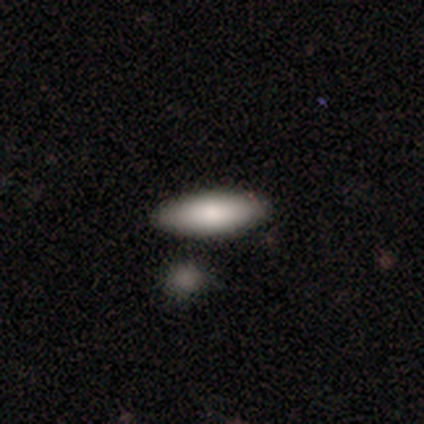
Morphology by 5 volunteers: A smooth galaxy with no disk features (80%) that is in between round and cigar-shaped (100%).

Vote fractions:
- Smooth or featured? smooth: 80% / featured or disk: 20% / star or artifact: 0%
- How rounded? in between: 100% / round: 0% / cigar-shaped: 0%
- Merging? none: 100% / minor disturbance: 0% / major disturbance: 0% / merger: 0%